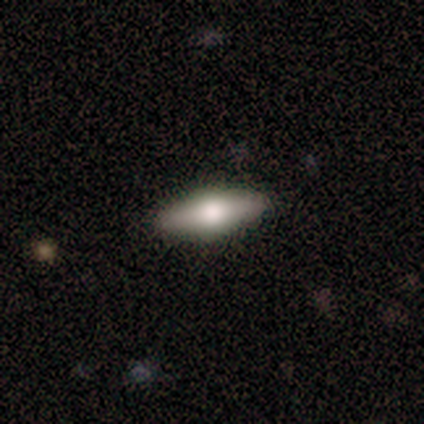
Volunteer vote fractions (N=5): Smooth or featured?
  - featured or disk: 60% *
  - smooth: 40%
  - star or artifact: 0%
Edge-on disk?
  - yes: 100% *
  - no: 0%
Edge-on bulge?
  - rounded: 100% *
  - boxy: 0%
  - none: 0%
Merging?
  - none: 80% *
  - minor disturbance: 20%
  - major disturbance: 0%
  - merger: 0%